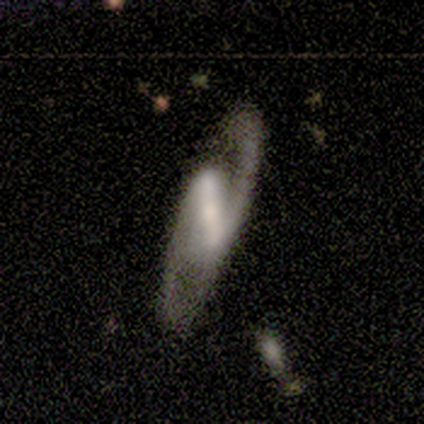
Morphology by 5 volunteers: Overall: featured or disk (80%). Edge-on disk: no (100%). Bar: strong (100%). Spiral arms: yes (100%). Spiral arm count: 2 (75%). Spiral winding: medium (75%). Bulge size: moderate (50%; small 25%). Merging: none (40%, tied with minor disturbance).